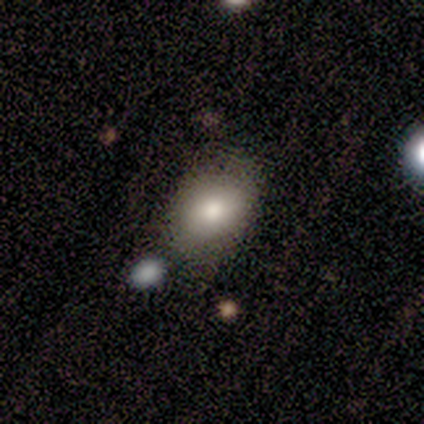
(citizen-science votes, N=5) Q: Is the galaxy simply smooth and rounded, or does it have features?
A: smooth — 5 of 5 (100%).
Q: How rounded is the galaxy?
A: in between — 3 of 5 (60%).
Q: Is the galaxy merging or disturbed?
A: none — 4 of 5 (80%).